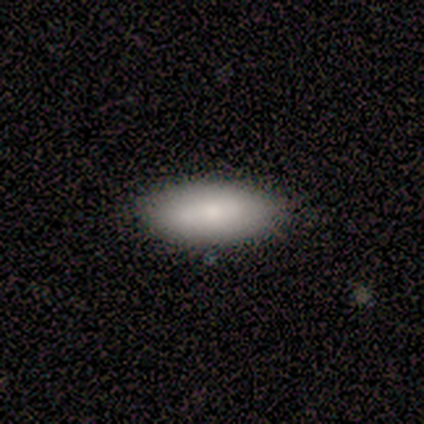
Q: Smooth or featured?
A: smooth (40%); tied with: star or artifact (40%)
Q: How rounded?
A: in between (100%)
Q: Merging?
A: none (100%)